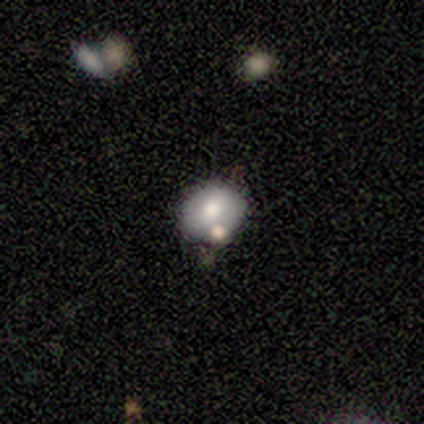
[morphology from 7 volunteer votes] Smooth or featured?
  - smooth: 57% *
  - star or artifact: 43%
  - featured or disk: 0%
How rounded?
  - round: 50% * (tied)
  - in between: 50% * (tied)
  - cigar-shaped: 0%
Merging?
  - none: 50% * (tied)
  - minor disturbance: 50% * (tied)
  - major disturbance: 0%
  - merger: 0%